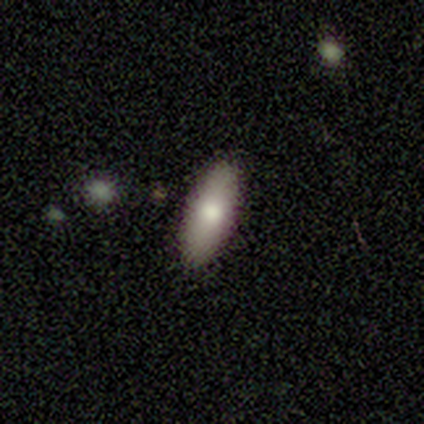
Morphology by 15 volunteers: A smooth galaxy with no disk features (100%) that is in between round and cigar-shaped (87%). Merging: none (100%).